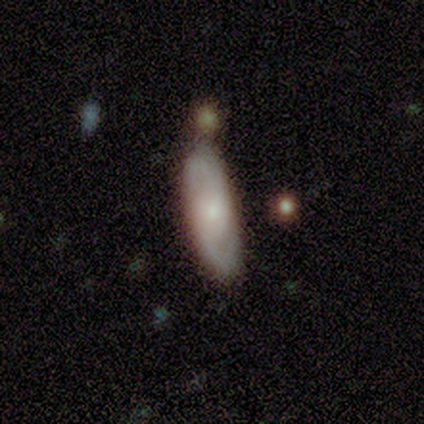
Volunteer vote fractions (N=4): Smooth or featured: smooth — 75% (featured or disk — 25%)
How rounded: in between — 67% (cigar-shaped — 33%)
Merging: none — 75% (minor disturbance — 25%)